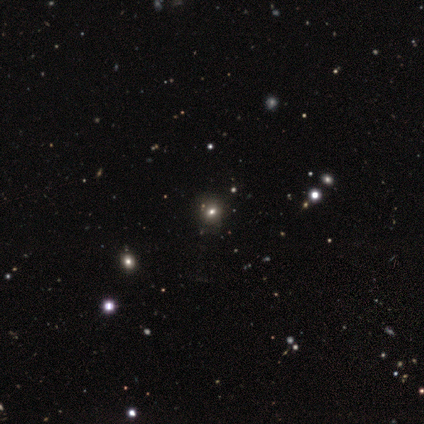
This appears to be a smooth galaxy with no disk features (51%) that is round (68%). Merging: none (52%).